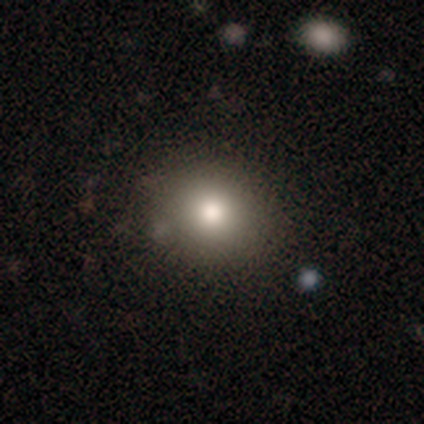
Overall: smooth (78%). How rounded: round (78%). Merging: none (52%).